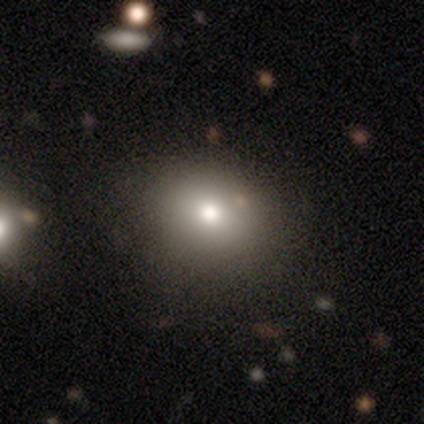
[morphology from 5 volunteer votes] This appears to be a smooth galaxy with no disk features (100%) that is round (60%). Merging: none (100%).